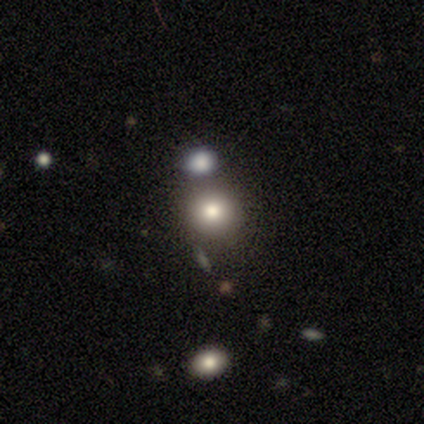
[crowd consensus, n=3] Morphology: type=featured or disk (67%); edge-on=no (100%); bar=weak (50%, tied with no); spiral arms=no (100%); bulge=dominant (50%, tied with none); merging=none (33%, tied with minor disturbance and merger).